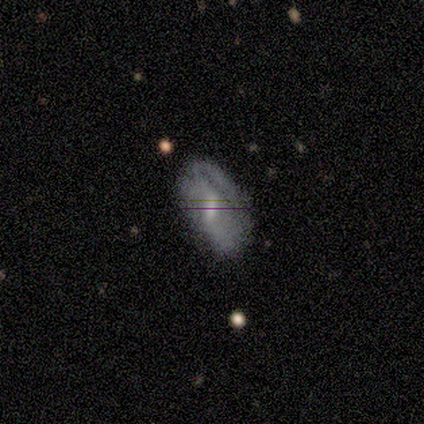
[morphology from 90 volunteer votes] Smooth or featured?
  - featured or disk: 61% *
  - smooth: 34%
  - star or artifact: 4%
Edge-on disk?
  - no: 95% *
  - yes: 5%
Bar?
  - weak: 50% *
  - strong: 25%
  - no: 25%
Spiral arms?
  - yes: 62% *
  - no: 38%
Spiral winding?
  - tight: 47% *
  - medium: 34%
  - loose: 19%
Spiral arm count?
  - can't tell: 44% *
  - 2: 28%
  - 1: 19%
  - 4: 6%
  - 3: 3%
  - more than 4: 0%
Bulge size?
  - moderate: 60% *
  - small: 25%
  - none: 15%
  - dominant: 0%
  - large: 0%
Merging?
  - none: 45% *
  - major disturbance: 28%
  - minor disturbance: 23%
  - merger: 3%